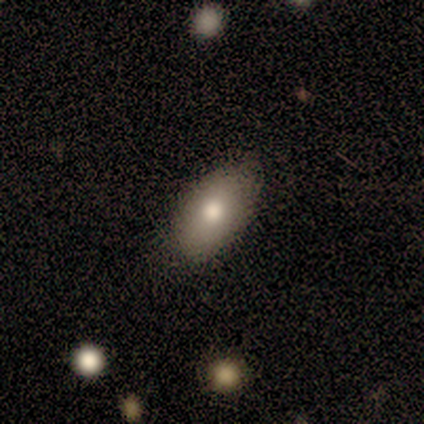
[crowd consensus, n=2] This appears to be a smooth galaxy with no disk features (100%) that is in between round and cigar-shaped (100%). Merging: none (100%).